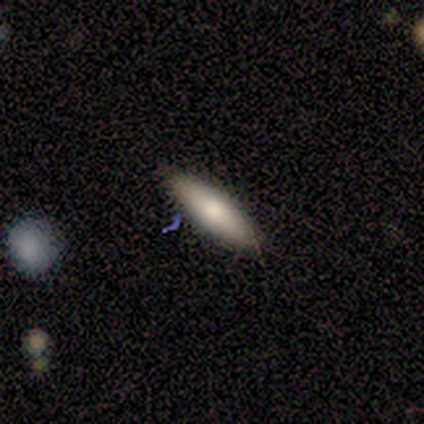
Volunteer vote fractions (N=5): Smooth or featured? 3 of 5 (60%) said smooth. How rounded? 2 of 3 (67%) said cigar-shaped. Merging? 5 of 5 (100%) said none.